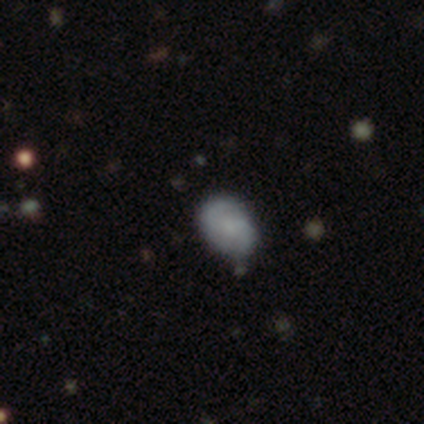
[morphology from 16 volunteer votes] This is likely a smooth galaxy (62%). How rounded: clearly in between (80%). Merging: likely none (77%).